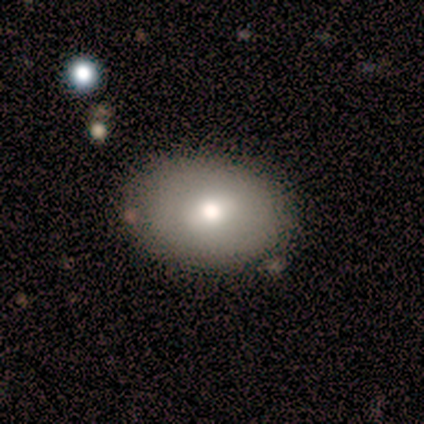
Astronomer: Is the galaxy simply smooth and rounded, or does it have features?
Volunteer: smooth — 67%.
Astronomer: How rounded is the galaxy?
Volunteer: in between — 90%.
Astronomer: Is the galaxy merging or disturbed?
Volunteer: none — 82%.